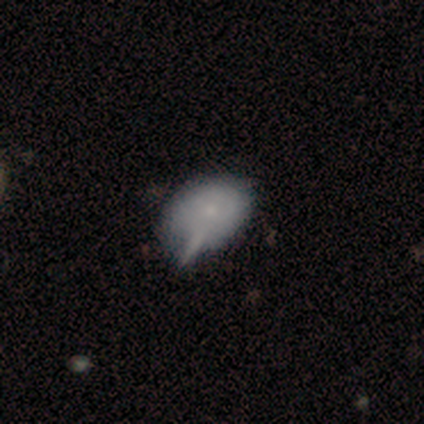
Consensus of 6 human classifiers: Overall: smooth (100%). How rounded: in between (100%). Merging: minor disturbance (67%).